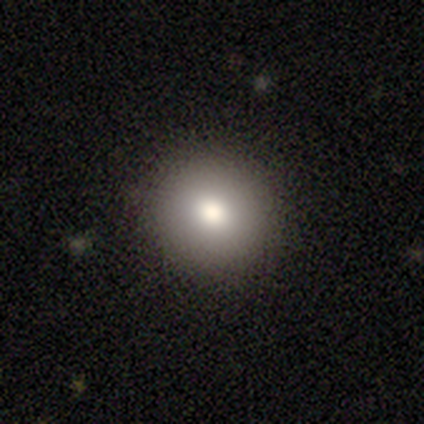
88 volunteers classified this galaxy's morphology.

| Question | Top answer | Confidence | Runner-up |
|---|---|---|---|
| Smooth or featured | smooth | 84% | star or artifact (10%) |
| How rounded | round | 88% | in between (12%) |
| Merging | none | 89% | minor disturbance (9%) |